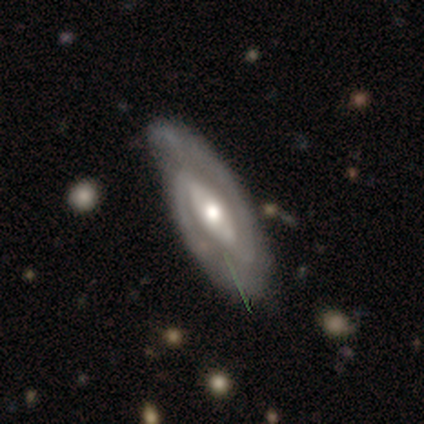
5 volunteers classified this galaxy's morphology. A featured or disk galaxy (100%) with a weak bar (40%, tied with no), 2 (100%) medium (60%) spiral arms (100%) and a moderate central bulge (60%).

Vote fractions:
- Smooth or featured? featured or disk: 100% / smooth: 0% / star or artifact: 0%
- Edge-on disk? no: 100% / yes: 0%
- Bar? weak: 40% (tied) / no: 40% (tied) / strong: 20%
- Spiral arms? yes: 100% / no: 0%
- Spiral winding? medium: 60% / tight: 40% / loose: 0%
- Spiral arm count? 2: 100% / 1: 0% / 3: 0% / 4: 0% / more than 4: 0% / can't tell: 0%
- Bulge size? moderate: 60% / small: 40% / dominant: 0% / large: 0% / none: 0%
- Merging? none: 80% / minor disturbance: 20% / major disturbance: 0% / merger: 0%